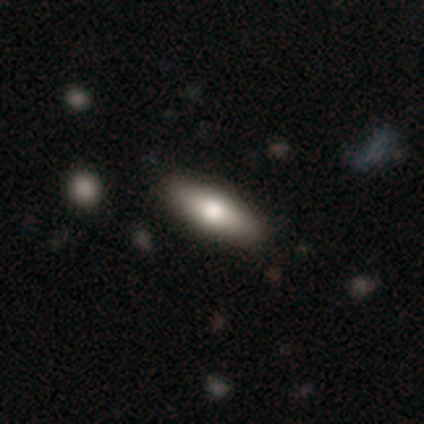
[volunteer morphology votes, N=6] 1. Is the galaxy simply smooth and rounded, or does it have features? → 67% smooth, 33% star or artifact, 0% featured or disk.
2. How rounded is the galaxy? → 75% in between, 25% cigar-shaped, 0% round.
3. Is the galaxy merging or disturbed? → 75% none, 25% minor disturbance, 0% major disturbance, 0% merger.